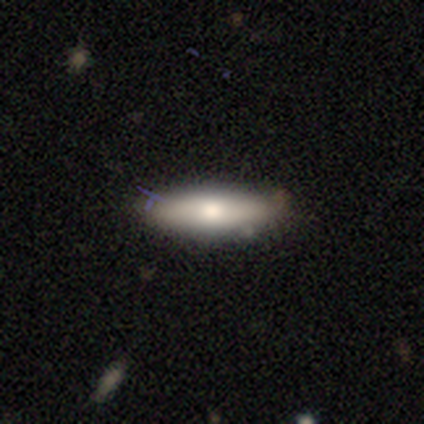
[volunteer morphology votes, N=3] Smooth or featured? smooth (67%)
How rounded? in between (50%, tied with cigar-shaped)
Merging? none (100%)